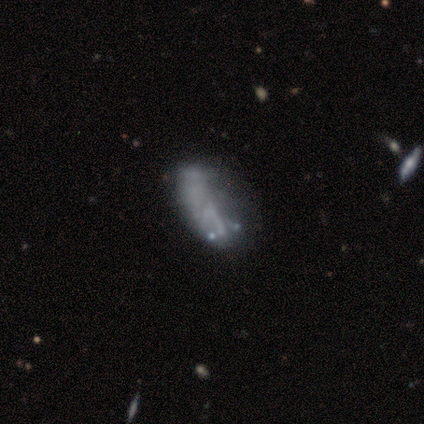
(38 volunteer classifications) smooth_or_featured: featured or disk (p=0.63) [alt: smooth p=0.26]
disk_edge_on: no (p=0.96) [alt: yes p=0.04]
bar: no (p=0.83) [alt: strong p=0.09]
has_spiral_arms: no (p=0.91) [alt: yes p=0.09]
bulge_size: none (p=0.91) [alt: dominant p=0.04]
merging: none (p=0.41) [alt: minor disturbance p=0.26]